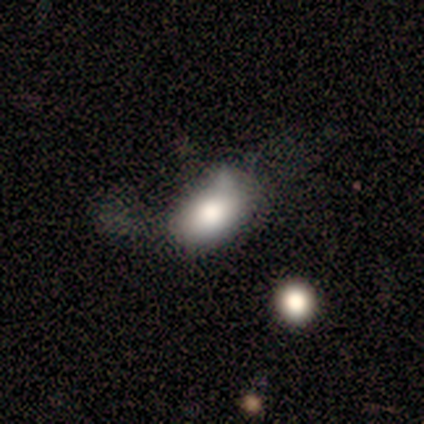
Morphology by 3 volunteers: Smooth or featured?
  - featured or disk: 67% *
  - smooth: 33%
  - star or artifact: 0%
Edge-on disk?
  - yes: 50% * (tied)
  - no: 50% * (tied)
Edge-on bulge?
  - rounded: 100% *
  - boxy: 0%
  - none: 0%
Merging?
  - minor disturbance: 67% *
  - major disturbance: 33%
  - none: 0%
  - merger: 0%